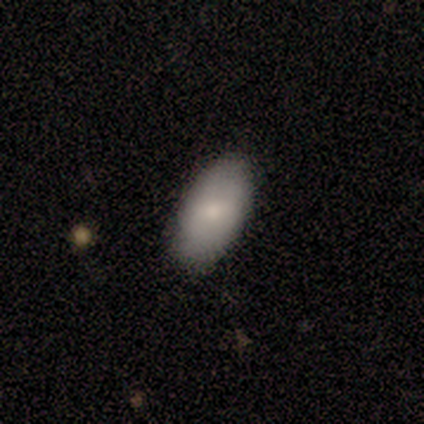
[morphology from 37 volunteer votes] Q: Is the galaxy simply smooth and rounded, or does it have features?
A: smooth — 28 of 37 (76%).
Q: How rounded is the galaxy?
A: in between — 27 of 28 (96%).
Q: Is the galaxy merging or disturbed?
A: none — 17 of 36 (47%).